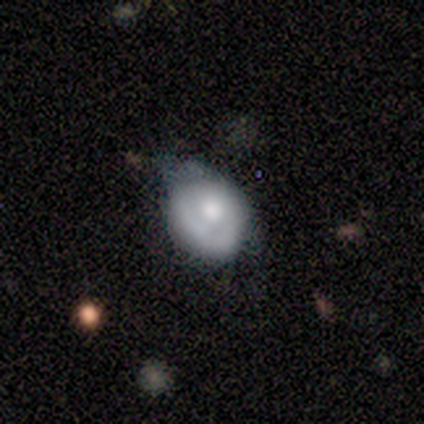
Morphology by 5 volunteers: A smooth galaxy with no disk features (100%) that is round (60%).

Vote fractions:
- Smooth or featured? smooth: 100% / featured or disk: 0% / star or artifact: 0%
- How rounded? round: 60% / in between: 40% / cigar-shaped: 0%
- Merging? minor disturbance: 80% / none: 20% / major disturbance: 0% / merger: 0%